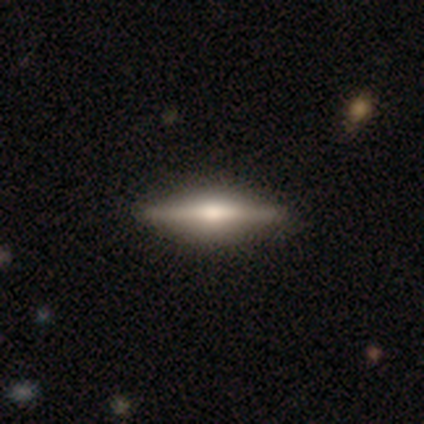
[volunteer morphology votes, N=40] smooth-or-featured: featured or disk: 70% | smooth: 30% | star or artifact: 0%
  disk-edge-on: yes: 96% | no: 4%
    edge-on-bulge: rounded: 74% | boxy: 22% | none: 4%
  merging: none: 55% | merger: 5% | minor disturbance: 2% | major disturbance: 0%